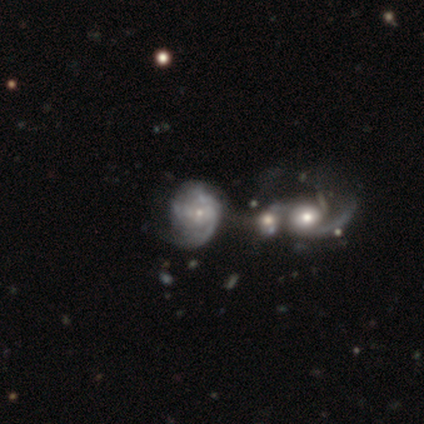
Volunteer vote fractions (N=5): Volunteers were most divided on "bar": no: 67%, weak: 33%, strong: 0%. More confident: edge-on disk — no (100%); spiral arms — yes (100%); spiral winding — tight (100%); bulge size — small (100%); merging — merger (100%); spiral arm count — can't tell (67%); smooth or featured — featured or disk (60%).